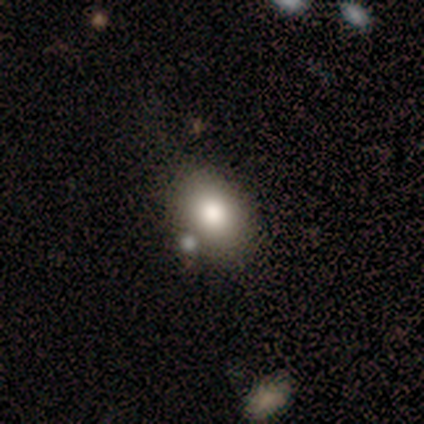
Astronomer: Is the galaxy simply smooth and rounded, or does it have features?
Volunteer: smooth — 80%.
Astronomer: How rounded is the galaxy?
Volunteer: in between — 75%.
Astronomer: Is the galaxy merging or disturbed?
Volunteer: none — 80%.